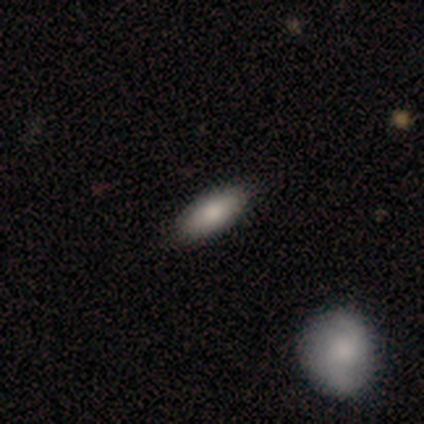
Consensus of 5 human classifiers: Smooth or featured? 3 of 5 (60%) said smooth. How rounded? 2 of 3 (67%) said in between. Merging? 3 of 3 (100%) said none.